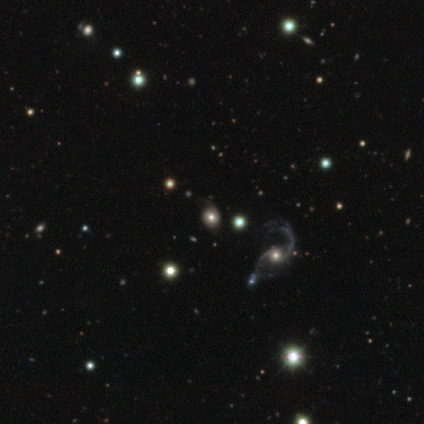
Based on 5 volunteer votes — Smooth or featured: featured or disk — 60% (smooth — 20%)
Edge-on disk: no — 100%
Bar: no — 100%
Spiral arms: yes — 100%
Spiral winding: loose — 100%
Spiral arm count: 2 — 100%
Bulge size: dominant — 33% (tied with large — 33%; moderate — 33%)
Merging: none — 75% (minor disturbance — 25%)